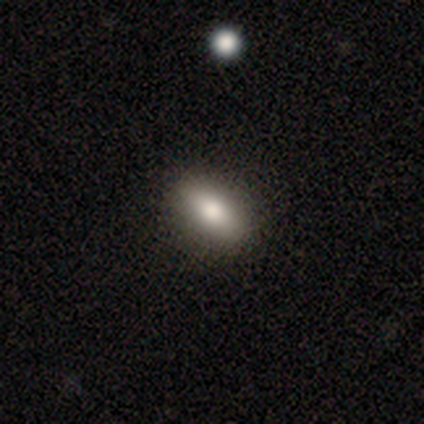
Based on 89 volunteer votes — Smooth or featured: smooth — 72% (featured or disk — 18%)
How rounded: in between — 83% (cigar-shaped — 12%)
Merging: none — 89% (minor disturbance — 9%)